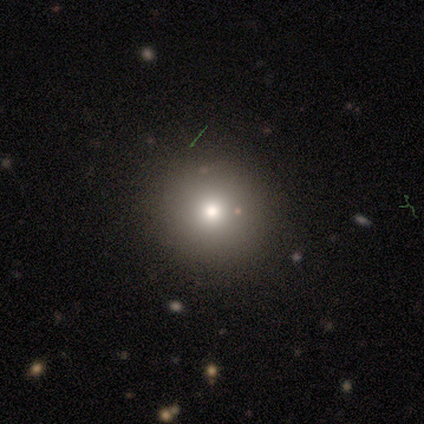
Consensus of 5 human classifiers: smooth-or-featured: smooth: 80% | featured or disk: 20% | star or artifact: 0%
  how-rounded: round: 100% | in between: 0% | cigar-shaped: 0%
  merging: none: 100% | minor disturbance: 0% | major disturbance: 0% | merger: 0%